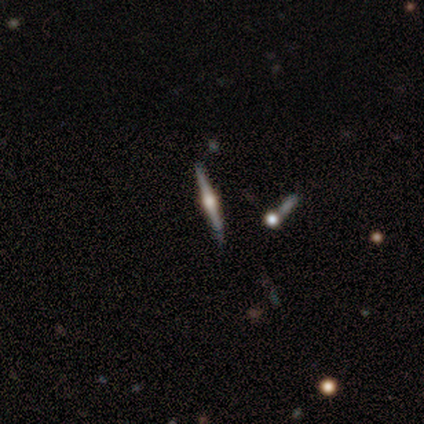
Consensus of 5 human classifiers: Morphology: type=featured or disk (80%); edge-on=yes (100%); edge-on bulge=rounded (100%); merging=none (80%).